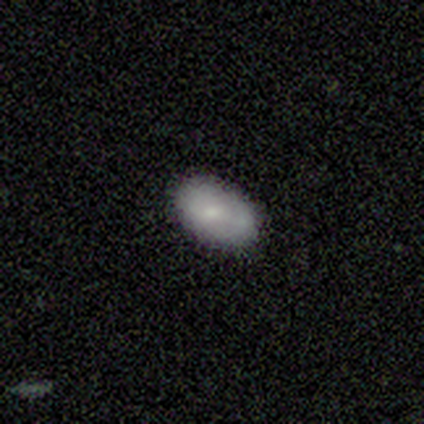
Smooth or featured? 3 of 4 (75%) said smooth. How rounded? 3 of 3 (100%) said in between. Merging? 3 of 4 (75%) said minor disturbance.